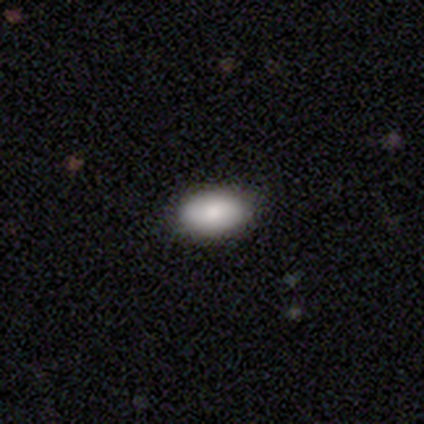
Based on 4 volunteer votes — A smooth galaxy with no disk features (100%) that is in between round and cigar-shaped (100%).

Vote fractions:
- Smooth or featured? smooth: 100% / featured or disk: 0% / star or artifact: 0%
- How rounded? in between: 100% / round: 0% / cigar-shaped: 0%
- Merging? none: 75% / minor disturbance: 25% / major disturbance: 0% / merger: 0%